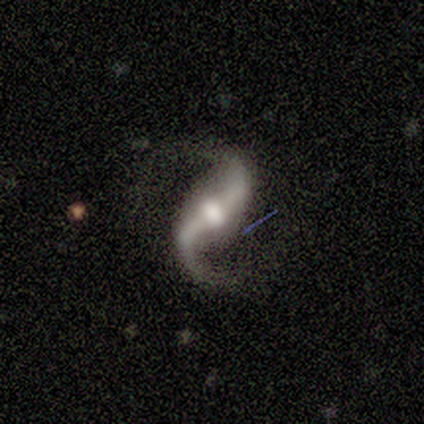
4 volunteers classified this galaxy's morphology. A featured or disk galaxy (100%) with a weak bar (75%), 2 (100%) medium (50%, tied with loose) spiral arms (100%) and a moderate central bulge (100%). Merging: none (75%).